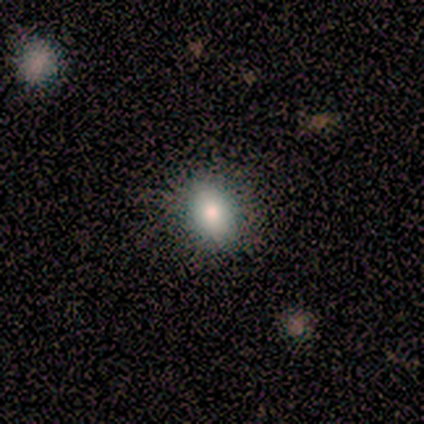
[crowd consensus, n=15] This appears to be a smooth galaxy with no disk features (100%) that is in between round and cigar-shaped (87%). Merging: none (73%).